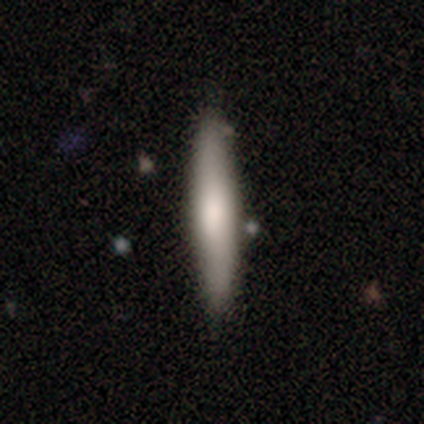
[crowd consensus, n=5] Overall: smooth (80%). How rounded: cigar-shaped (100%). Merging: none (100%).